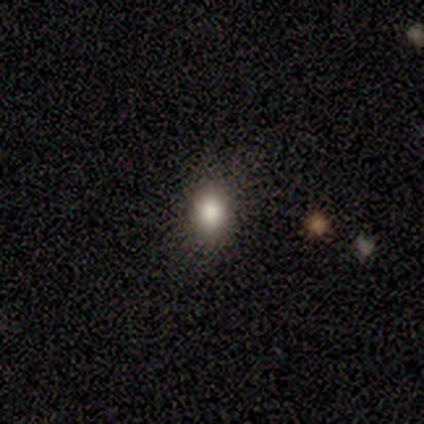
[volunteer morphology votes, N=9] Smooth or featured? 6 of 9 (67%) said smooth. How rounded? 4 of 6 (67%) said in between. Merging? 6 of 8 (75%) said none.